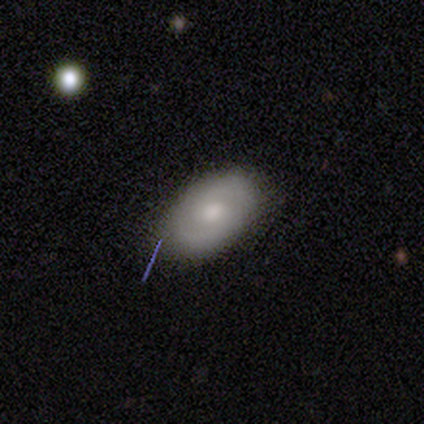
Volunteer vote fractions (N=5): A featured or disk galaxy (80%) with a weak bar (50%), 2 (100%) medium (75%) spiral arms (100%) and a moderate central bulge (75%).

Vote fractions:
- Smooth or featured? featured or disk: 80% / smooth: 20% / star or artifact: 0%
- Edge-on disk? no: 100% / yes: 0%
- Bar? weak: 50% / strong: 25% / no: 25%
- Spiral arms? yes: 100% / no: 0%
- Spiral winding? medium: 75% / loose: 25% / tight: 0%
- Spiral arm count? 2: 100% / 1: 0% / 3: 0% / 4: 0% / more than 4: 0% / can't tell: 0%
- Bulge size? moderate: 75% / small: 25% / dominant: 0% / large: 0% / none: 0%
- Merging? none: 100% / minor disturbance: 0% / major disturbance: 0% / merger: 0%